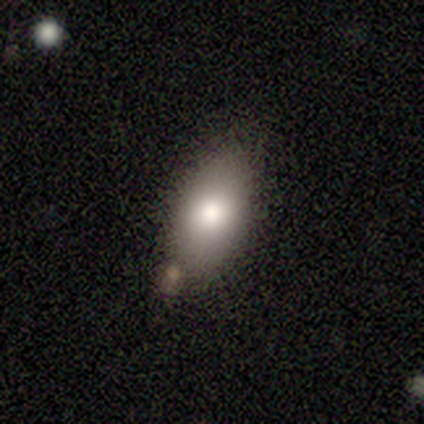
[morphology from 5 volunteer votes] smooth-or-featured: smooth: 100% | featured or disk: 0% | star or artifact: 0%
  how-rounded: in between: 100% | round: 0% | cigar-shaped: 0%
  merging: merger: 80% | none: 20% | minor disturbance: 0% | major disturbance: 0%